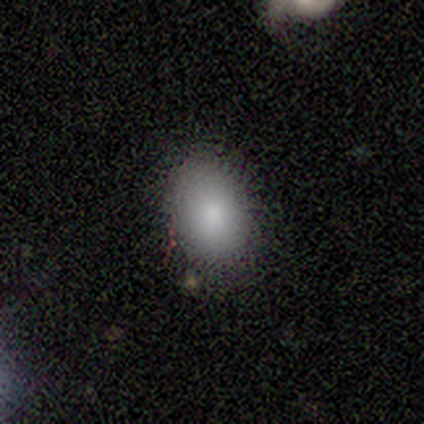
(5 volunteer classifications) Volunteers were most divided on "how rounded": in between: 60%, round: 40%, cigar-shaped: 0%. More confident: smooth or featured — smooth (100%); merging — none (100%).